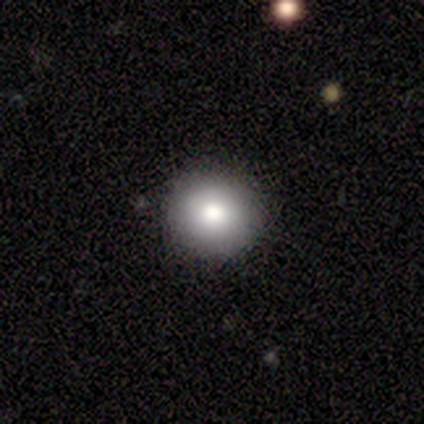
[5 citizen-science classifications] Smooth or featured?
  - smooth: 60% *
  - featured or disk: 40%
  - star or artifact: 0%
How rounded?
  - round: 100% *
  - in between: 0%
  - cigar-shaped: 0%
Merging?
  - none: 80% *
  - major disturbance: 20%
  - minor disturbance: 0%
  - merger: 0%